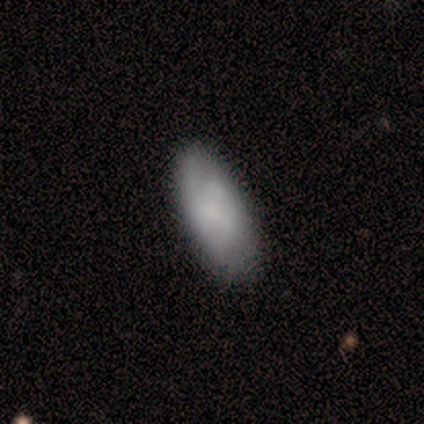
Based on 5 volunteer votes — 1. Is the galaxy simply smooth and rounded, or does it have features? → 80% smooth, 20% featured or disk, 0% star or artifact.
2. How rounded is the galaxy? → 75% in between, 25% cigar-shaped, 0% round.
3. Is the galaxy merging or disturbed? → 80% none, 20% minor disturbance, 0% major disturbance, 0% merger.